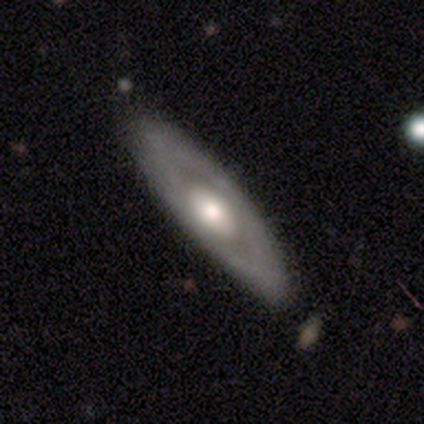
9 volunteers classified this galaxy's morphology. Q: Smooth or featured?
A: featured or disk (78%); runner-up: smooth (22%)
Q: Edge-on disk?
A: no (86%); runner-up: yes (14%)
Q: Bar?
A: no (83%); runner-up: strong (17%)
Q: Spiral arms?
A: no (83%); runner-up: yes (17%)
Q: Bulge size?
A: moderate (50%); runner-up: large (33%)
Q: Merging?
A: none (78%); runner-up: minor disturbance (22%)